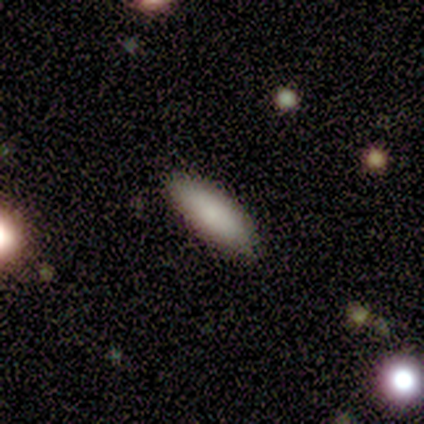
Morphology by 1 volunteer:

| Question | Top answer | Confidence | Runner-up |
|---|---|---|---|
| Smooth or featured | smooth | 100% | — |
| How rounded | in between | 100% | — |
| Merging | none | 100% | — |